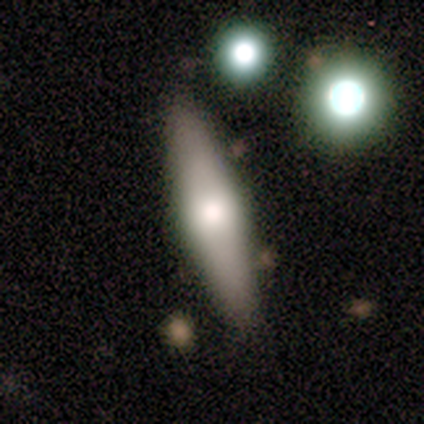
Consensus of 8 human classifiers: Smooth or featured?
  - smooth: 50% *
  - featured or disk: 38%
  - star or artifact: 12%
How rounded?
  - in between: 75% *
  - cigar-shaped: 25%
  - round: 0%
Merging?
  - none: 86% *
  - merger: 14%
  - minor disturbance: 0%
  - major disturbance: 0%